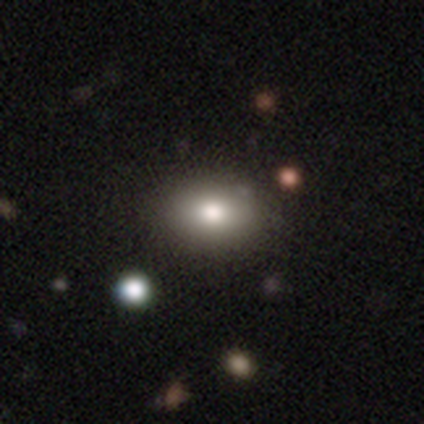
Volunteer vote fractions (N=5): Smooth or featured? 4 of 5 (80%) said smooth. How rounded? 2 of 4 (50%, tied with in between) said round. Merging? 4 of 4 (100%) said none.